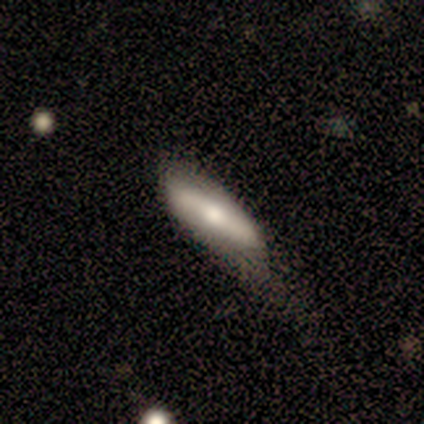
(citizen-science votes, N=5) Volunteers were most divided on "merging": minor disturbance: 60%, none: 20%, merger: 20%, major disturbance: 0%. More confident: edge-on disk — yes (100%); edge-on bulge — rounded (100%); smooth or featured — featured or disk (80%).